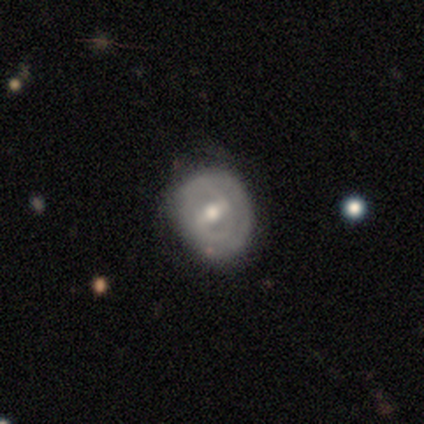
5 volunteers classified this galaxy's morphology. This appears to be a featured or disk galaxy (100%) with a strong bar (80%), 2 (100%) tight (50%, tied with loose) spiral arms (80%) and a moderate central bulge (80%). Merging: none (80%).